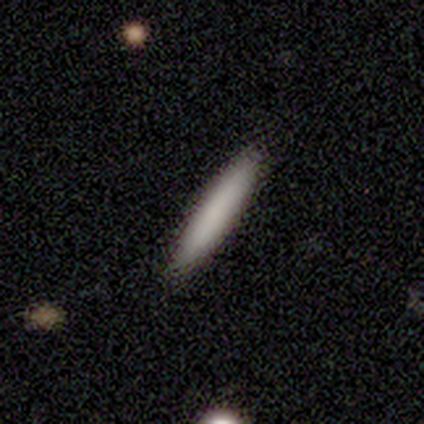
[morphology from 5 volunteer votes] Smooth or featured: smooth — 80% (star or artifact — 20%)
How rounded: cigar-shaped — 100%
Merging: none — 100%